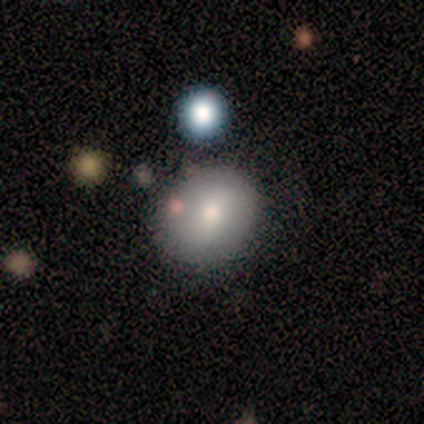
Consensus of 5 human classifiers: A smooth galaxy with no disk features (60%) that is in between round and cigar-shaped (67%).

Vote fractions:
- Smooth or featured? smooth: 60% / featured or disk: 40% / star or artifact: 0%
- How rounded? in between: 67% / round: 33% / cigar-shaped: 0%
- Merging? none: 80% / merger: 20% / minor disturbance: 0% / major disturbance: 0%